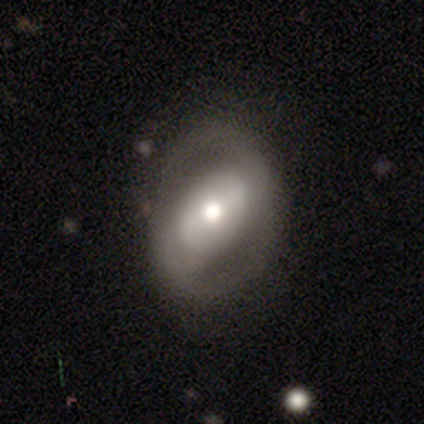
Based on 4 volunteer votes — Smooth or featured? 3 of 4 (75%) said featured or disk. Edge-on disk? 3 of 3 (100%) said no. Bar? 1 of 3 (33%, tied with weak and no) said strong. Spiral arms? 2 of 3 (67%) said yes. Spiral winding? 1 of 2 (50%, tied with loose) said tight. Spiral arm count? 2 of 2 (100%) said 2. Bulge size? 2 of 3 (67%) said moderate. Merging? 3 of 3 (100%) said none.